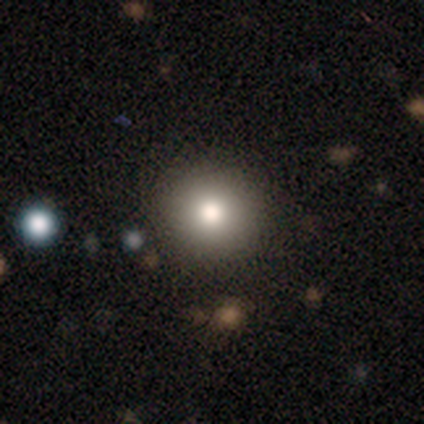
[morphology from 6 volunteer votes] Smooth or featured?
  - smooth: 67% *
  - featured or disk: 33%
  - star or artifact: 0%
How rounded?
  - round: 100% *
  - in between: 0%
  - cigar-shaped: 0%
Merging?
  - none: 67% *
  - minor disturbance: 17%
  - major disturbance: 17%
  - merger: 0%